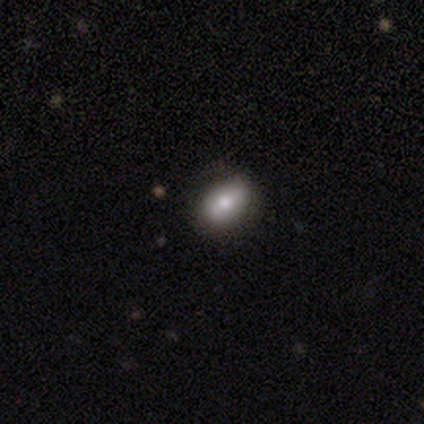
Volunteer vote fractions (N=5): smooth 100%, featured or disk 0%, star or artifact 0%. Down the decision tree: how rounded — in between (100%); merging — none (80%).